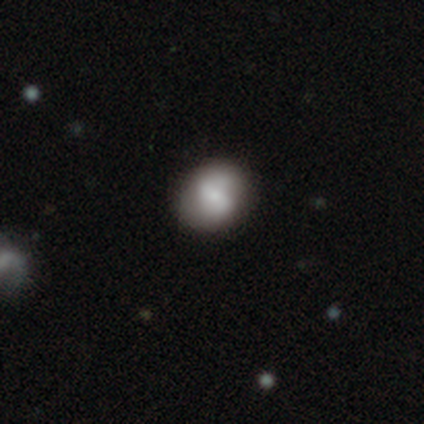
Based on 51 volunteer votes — This appears to be a smooth galaxy with no disk features (57%) that is round (66%). Merging: none (89%).